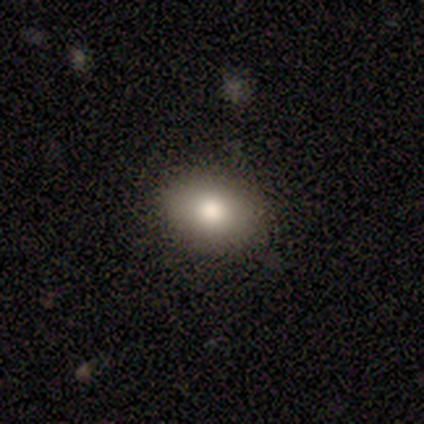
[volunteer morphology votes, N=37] This appears to be a smooth galaxy with no disk features (70%) that is in between round and cigar-shaped (88%). Merging: none (97%).